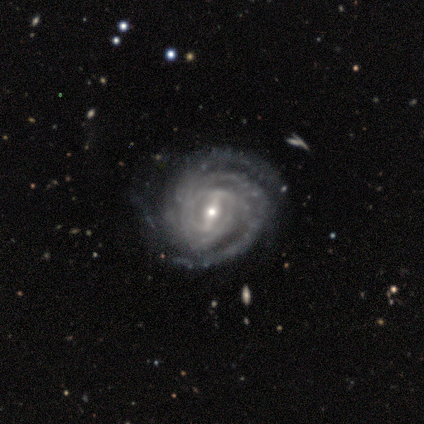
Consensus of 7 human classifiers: A featured or disk galaxy (100%) with a strong bar (43%), 3 (43%, tied with 4) tight (86%) spiral arms (100%) and a small central bulge (86%).

Vote fractions:
- Smooth or featured? featured or disk: 100% / smooth: 0% / star or artifact: 0%
- Edge-on disk? no: 100% / yes: 0%
- Bar? strong: 43% / weak: 29% / no: 29%
- Spiral arms? yes: 100% / no: 0%
- Spiral winding? tight: 86% / medium: 14% / loose: 0%
- Spiral arm count? 3: 43% (tied) / 4: 43% (tied) / more than 4: 14% / 1: 0% / 2: 0% / can't tell: 0%
- Bulge size? small: 86% / moderate: 14% / dominant: 0% / large: 0% / none: 0%
- Merging? none: 100% / minor disturbance: 0% / major disturbance: 0% / merger: 0%